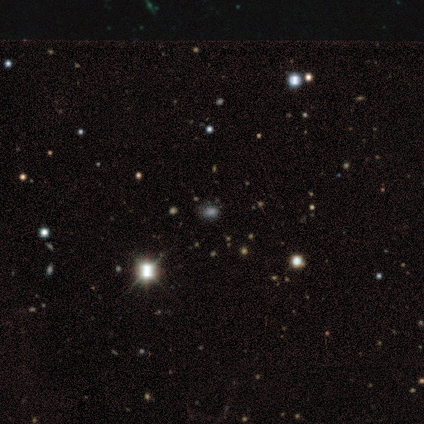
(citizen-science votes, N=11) smooth_or_featured: smooth (p=0.55) [alt: star or artifact p=0.36]
how_rounded: round (p=0.50) [tied with: in between p=0.50]
merging: none (p=0.86) [alt: minor disturbance p=0.14]